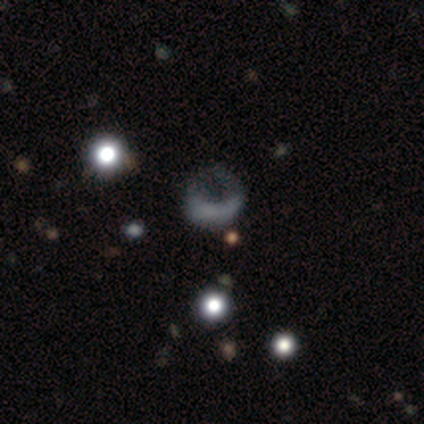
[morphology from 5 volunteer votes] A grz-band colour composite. It shows a smooth galaxy with no disk features (60%) that is round (100%). Merging: minor disturbance (40%, tied with major disturbance).